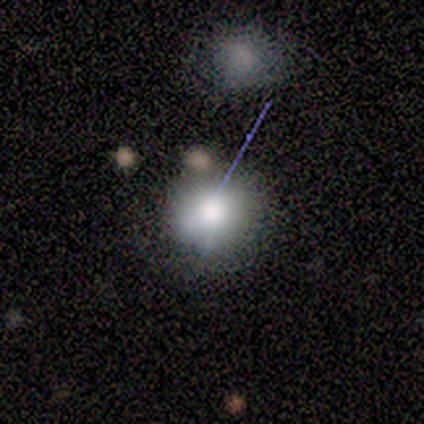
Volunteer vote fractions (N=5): This is likely a smooth galaxy (60%). How rounded: clearly round (100%). Merging: likely none (75%).